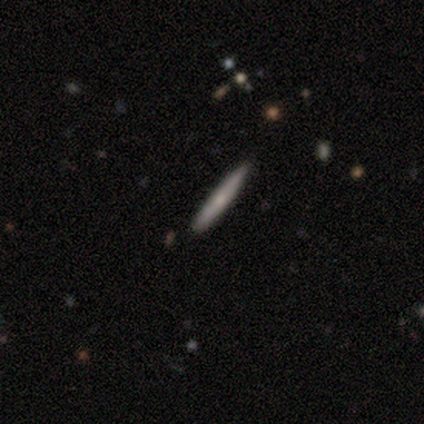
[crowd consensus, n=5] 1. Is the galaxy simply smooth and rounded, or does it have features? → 80% smooth, 20% featured or disk, 0% star or artifact.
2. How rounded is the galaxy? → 100% cigar-shaped, 0% round, 0% in between.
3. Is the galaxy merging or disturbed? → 100% none, 0% minor disturbance, 0% major disturbance, 0% merger.